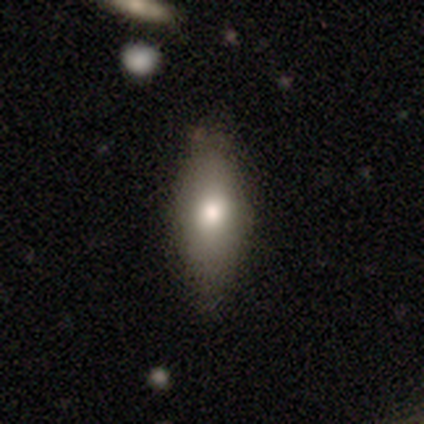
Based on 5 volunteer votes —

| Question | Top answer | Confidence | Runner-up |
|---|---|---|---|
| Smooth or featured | smooth | 80% | featured or disk (20%) |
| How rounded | round | 50% | tied: in between (50%) |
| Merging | none | 60% | minor disturbance (20%) |